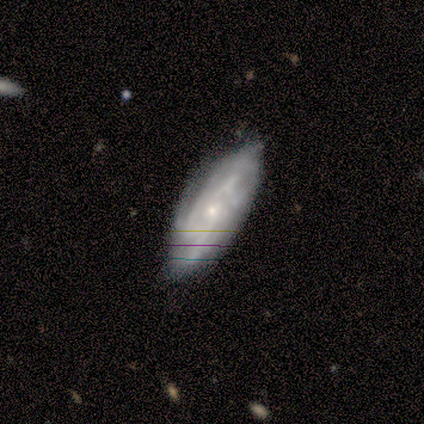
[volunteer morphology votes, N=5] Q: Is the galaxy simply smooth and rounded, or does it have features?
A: featured or disk — 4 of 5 (80%).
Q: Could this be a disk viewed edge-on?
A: no — 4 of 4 (100%).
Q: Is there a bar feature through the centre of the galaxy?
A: weak — 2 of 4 (50%, tied with no).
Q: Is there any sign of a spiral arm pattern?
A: yes — 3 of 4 (75%).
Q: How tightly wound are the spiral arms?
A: tight — 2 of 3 (67%).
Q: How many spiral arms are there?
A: can't tell — 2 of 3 (67%).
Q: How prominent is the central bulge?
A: small — 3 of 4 (75%).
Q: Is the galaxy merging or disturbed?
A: none — 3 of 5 (60%).